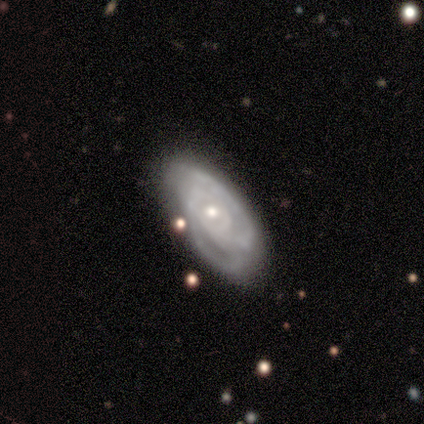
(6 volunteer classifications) A featured or disk galaxy (83%) with no bar (80%), 3 (67%) medium (67%) spiral arms (60%) and a moderate central bulge (60%). Merging: none (50%, tied with minor disturbance).